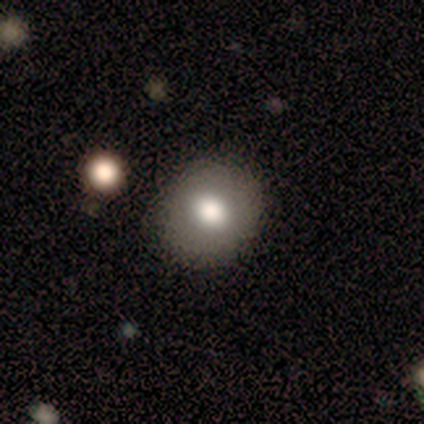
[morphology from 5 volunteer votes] Volunteers were most divided on "merging": none: 75%, minor disturbance: 25%, major disturbance: 0%, merger: 0%. More confident: how rounded — round (100%); smooth or featured — smooth (80%).